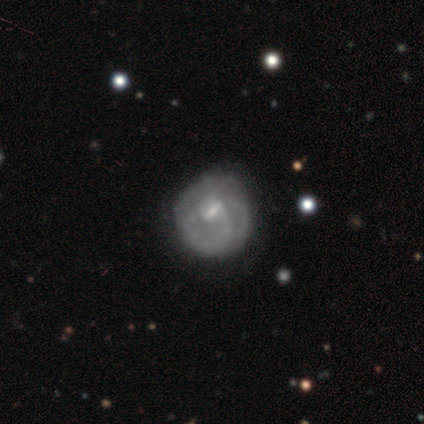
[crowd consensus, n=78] Smooth or featured? featured or disk (81%)
Edge-on disk? no (98%)
Bar? weak (56%)
Spiral arms? yes (66%)
Spiral winding? tight (44%)
Spiral arm count? can't tell (56%)
Bulge size? small (58%)
Merging? none (35%)